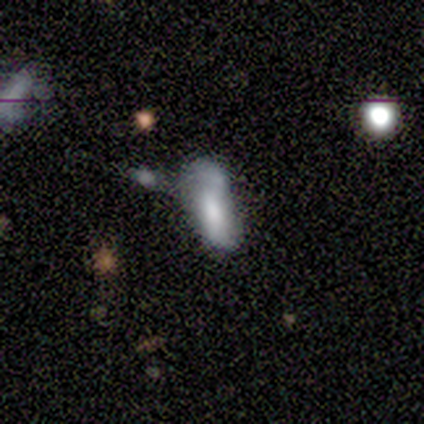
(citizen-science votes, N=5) Q: Smooth or featured?
A: smooth (60%); runner-up: featured or disk (40%)
Q: How rounded?
A: in between (67%); runner-up: cigar-shaped (33%)
Q: Merging?
A: none (40%); tied with: major disturbance (40%)